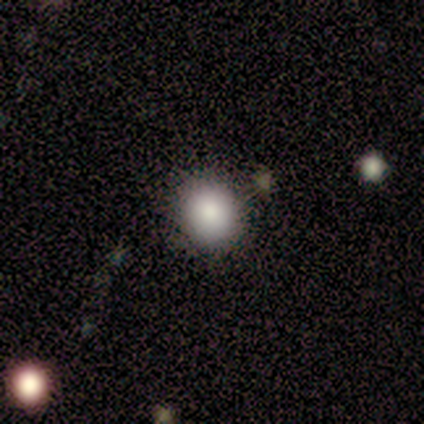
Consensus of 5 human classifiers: This appears to be a smooth galaxy with no disk features (100%) that is round (80%). Merging: none (100%).